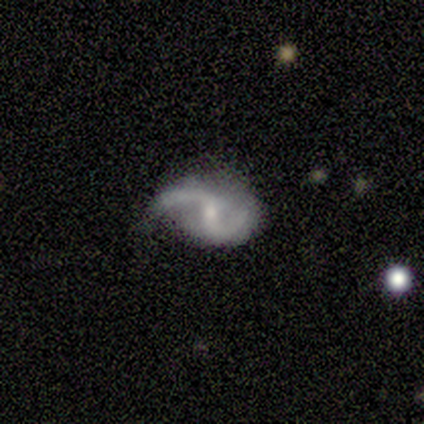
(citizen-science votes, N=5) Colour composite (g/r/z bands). It shows a featured or disk galaxy (80%) with no bar (75%), 2 (100%) loose (75%) spiral arms (100%) and a small central bulge (75%). Merging: none (40%, tied with minor disturbance).